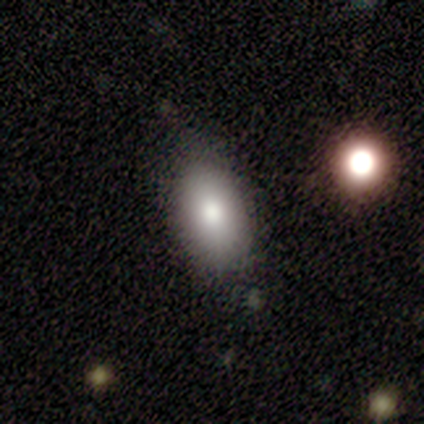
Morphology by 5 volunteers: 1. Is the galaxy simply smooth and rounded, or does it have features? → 80% smooth, 20% star or artifact, 0% featured or disk.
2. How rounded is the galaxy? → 100% in between, 0% round, 0% cigar-shaped.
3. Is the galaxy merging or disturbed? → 75% none, 25% minor disturbance, 0% major disturbance, 0% merger.